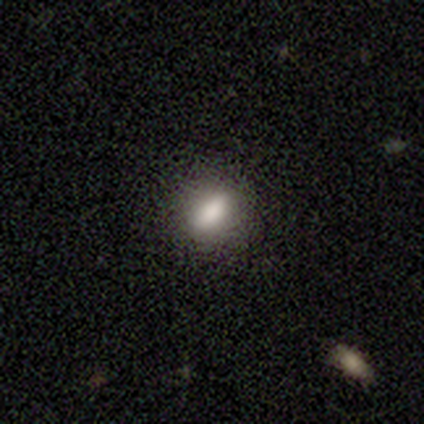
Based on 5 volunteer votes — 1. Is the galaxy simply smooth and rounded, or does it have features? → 100% smooth, 0% featured or disk, 0% star or artifact.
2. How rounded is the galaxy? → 100% in between, 0% round, 0% cigar-shaped.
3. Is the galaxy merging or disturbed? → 80% none, 20% major disturbance, 0% minor disturbance, 0% merger.